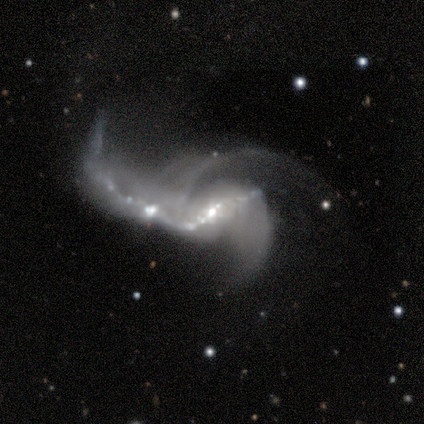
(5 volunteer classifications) A featured or disk galaxy (60%) viewed edge-on (67%) with a boxy central bulge (50%, tied with rounded). Merging: major disturbance (50%, tied with merger).